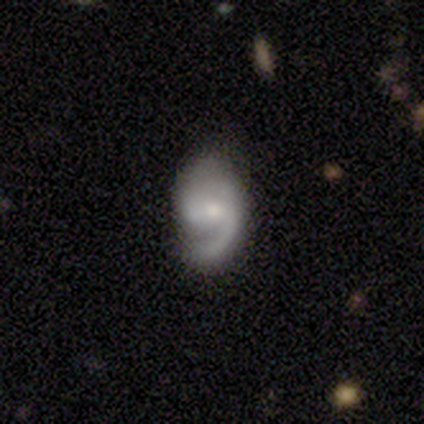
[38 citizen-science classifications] Smooth or featured? 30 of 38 (79%) said featured or disk. Edge-on disk? 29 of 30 (97%) said no. Bar? 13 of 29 (45%) said no. Spiral arms? 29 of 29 (100%) said yes. Spiral winding? 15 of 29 (52%) said medium. Spiral arm count? 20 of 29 (69%) said 2. Bulge size? 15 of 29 (52%) said moderate. Merging? 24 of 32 (75%) said none.